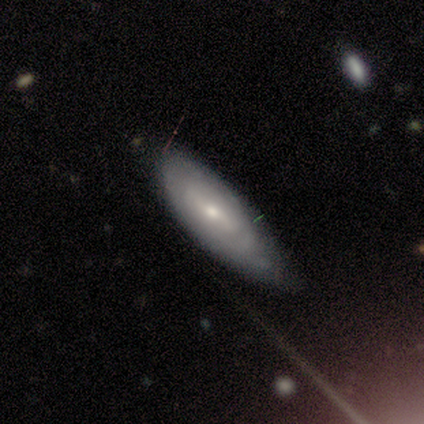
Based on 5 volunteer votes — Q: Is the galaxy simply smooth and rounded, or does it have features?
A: featured or disk — 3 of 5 (60%).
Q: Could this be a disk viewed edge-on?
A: no — 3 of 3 (100%).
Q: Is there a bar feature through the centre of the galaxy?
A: strong — 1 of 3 (33%, tied with weak and no).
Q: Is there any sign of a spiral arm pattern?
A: yes — 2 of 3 (67%).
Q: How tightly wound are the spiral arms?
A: tight — 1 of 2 (50%, tied with loose).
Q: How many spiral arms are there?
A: can't tell — 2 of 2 (100%).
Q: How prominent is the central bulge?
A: small — 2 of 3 (67%).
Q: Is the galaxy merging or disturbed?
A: none — 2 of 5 (40%, tied with minor disturbance).